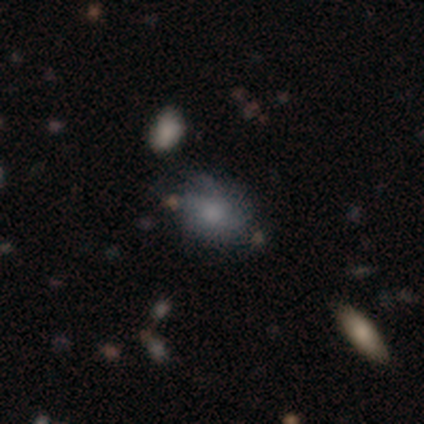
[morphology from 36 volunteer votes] Smooth or featured? smooth (53%)
How rounded? round (47%, tied with in between)
Merging? none (53%)